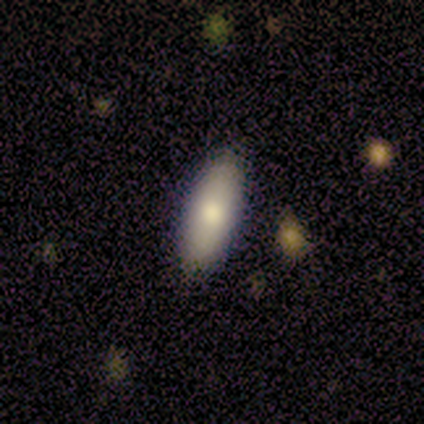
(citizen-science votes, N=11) smooth-or-featured: smooth: 91% | featured or disk: 9% | star or artifact: 0%
  how-rounded: in between: 90% | cigar-shaped: 10% | round: 0%
  merging: none: 100% | minor disturbance: 0% | major disturbance: 0% | merger: 0%